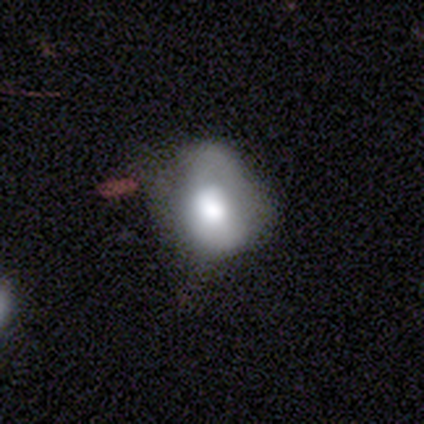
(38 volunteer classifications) smooth 58%, featured or disk 34%, star or artifact 8%. Down the decision tree: how rounded — round (59%); merging — none (43%).